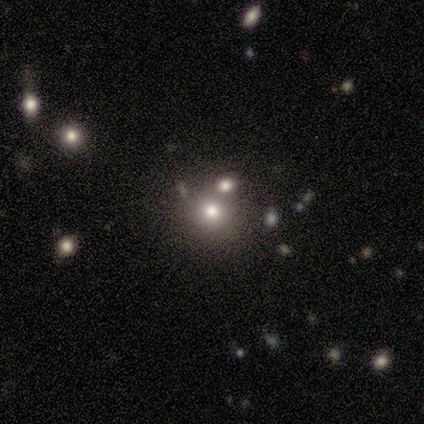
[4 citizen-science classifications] Q: Smooth or featured?
A: smooth (100%)
Q: How rounded?
A: round (100%)
Q: Merging?
A: none (50%); tied with: merger (50%)